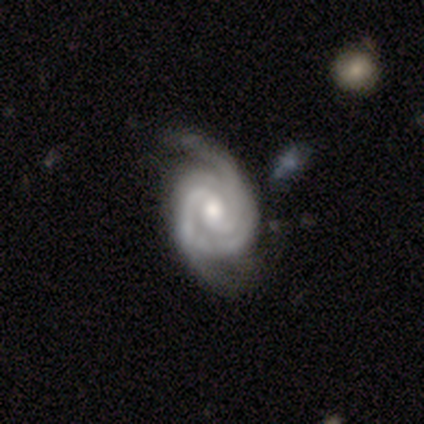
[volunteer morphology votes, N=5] A featured or disk galaxy (80%) with a weak bar (50%, tied with no), 2 (67%) tight (67%) spiral arms (75%) and a small central bulge (75%).

Vote fractions:
- Smooth or featured? featured or disk: 80% / smooth: 20% / star or artifact: 0%
- Edge-on disk? no: 100% / yes: 0%
- Bar? weak: 50% (tied) / no: 50% (tied) / strong: 0%
- Spiral arms? yes: 75% / no: 25%
- Spiral winding? tight: 67% / loose: 33% / medium: 0%
- Spiral arm count? 2: 67% / 3: 33% / 1: 0% / 4: 0% / more than 4: 0% / can't tell: 0%
- Bulge size? small: 75% / moderate: 25% / dominant: 0% / large: 0% / none: 0%
- Merging? none: 80% / minor disturbance: 20% / major disturbance: 0% / merger: 0%